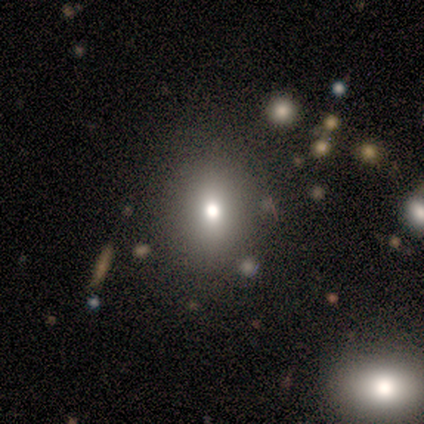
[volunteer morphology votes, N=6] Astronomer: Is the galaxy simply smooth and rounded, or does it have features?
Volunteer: smooth — 83%.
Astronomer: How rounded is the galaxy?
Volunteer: round — 80%.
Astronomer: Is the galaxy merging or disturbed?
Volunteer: none — 100%.